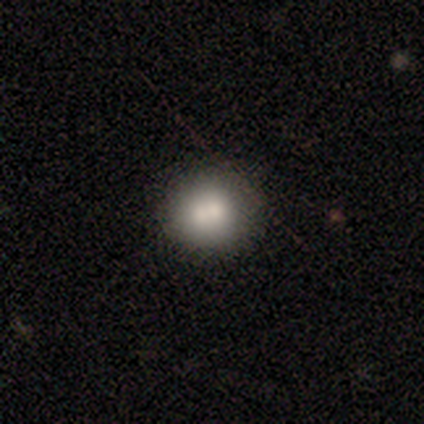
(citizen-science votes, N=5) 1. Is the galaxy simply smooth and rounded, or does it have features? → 60% smooth, 40% featured or disk, 0% star or artifact.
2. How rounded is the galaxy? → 100% round, 0% in between, 0% cigar-shaped.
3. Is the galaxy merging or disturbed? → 60% none, 40% merger, 0% minor disturbance, 0% major disturbance.